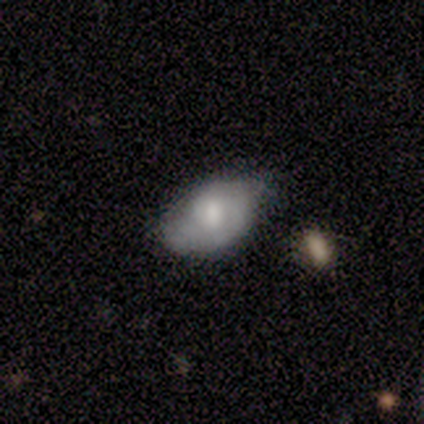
Q: Smooth or featured?
A: smooth (60%); runner-up: featured or disk (40%)
Q: How rounded?
A: in between (67%); runner-up: round (33%)
Q: Merging?
A: minor disturbance (60%); runner-up: merger (40%)